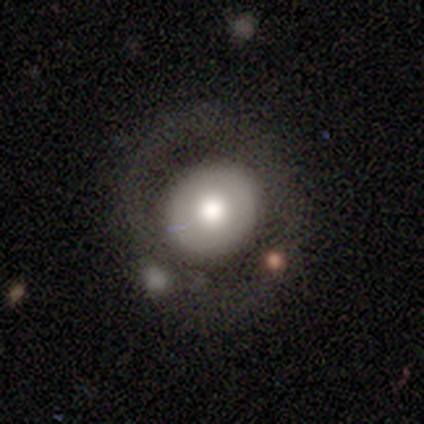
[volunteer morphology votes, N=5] type=smooth (80%); roundness=round (100%); merging=none (100%).